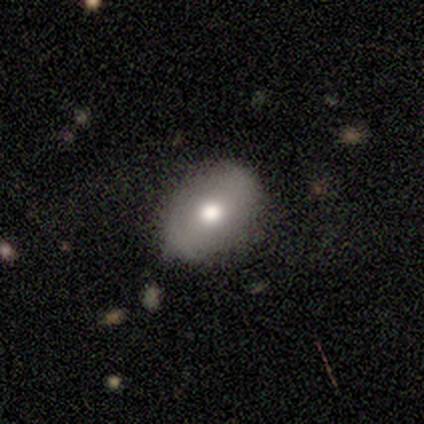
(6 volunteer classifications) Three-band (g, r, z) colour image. It shows a smooth galaxy with no disk features (67%) that is round (100%). Merging: none (83%).